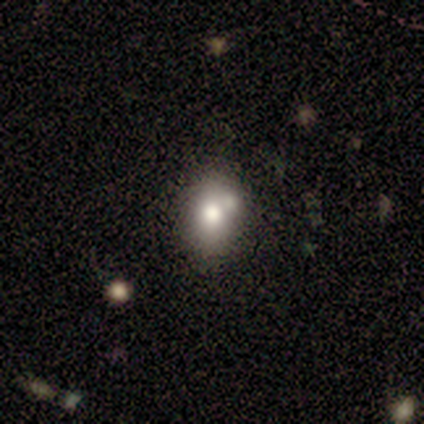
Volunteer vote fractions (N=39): Q: Smooth or featured?
A: smooth (74%); runner-up: featured or disk (18%)
Q: How rounded?
A: in between (55%); runner-up: round (38%)
Q: Merging?
A: none (61%); runner-up: merger (25%)